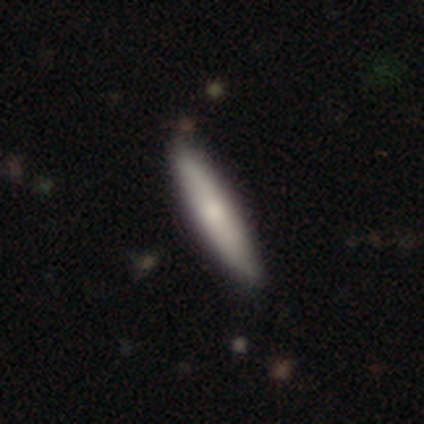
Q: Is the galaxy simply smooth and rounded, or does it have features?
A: smooth — 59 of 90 (66%).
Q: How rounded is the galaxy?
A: cigar-shaped — 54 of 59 (92%).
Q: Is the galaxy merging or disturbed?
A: none — 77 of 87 (89%).